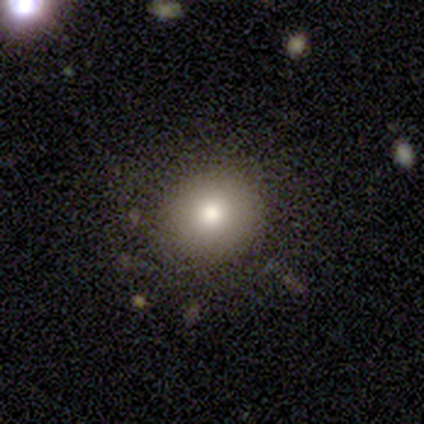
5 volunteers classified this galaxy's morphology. This is marginally a smooth galaxy (40%, tied with star or artifact). How rounded: clearly round (100%). Merging: likely none (67%).